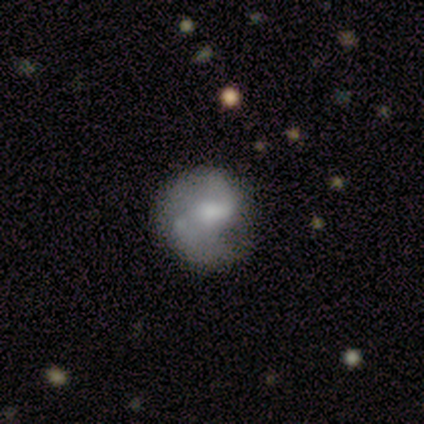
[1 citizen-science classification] Overall: featured or disk (100%). Edge-on disk: no (100%). Bar: weak (100%). Spiral arms: yes (100%). Spiral arm count: 2 (100%). Spiral winding: medium (100%). Bulge size: small (100%). Merging: none (100%).